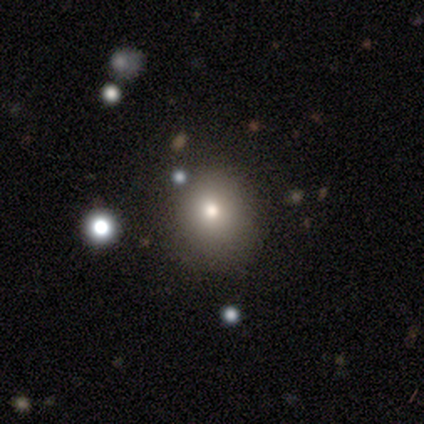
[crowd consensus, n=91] Morphology: type=smooth (70%); roundness=round (81%); merging=none (82%).